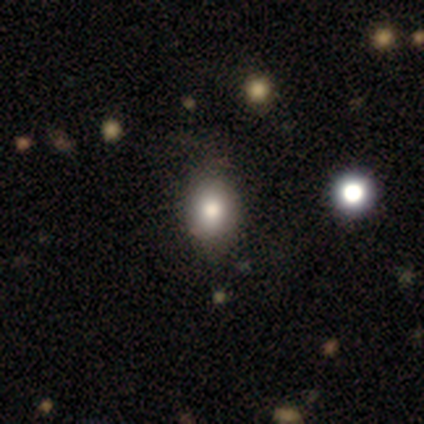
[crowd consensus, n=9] Overall: smooth (78%). How rounded: in between (57%; round 43%). Merging: minor disturbance (62%; none 38%).